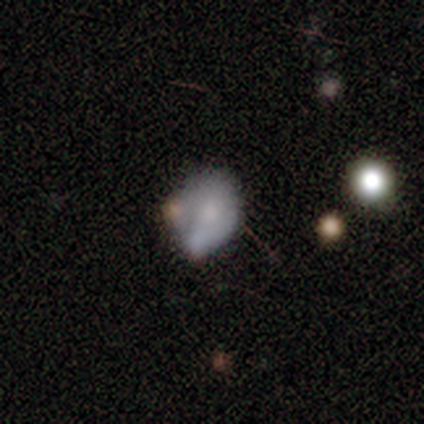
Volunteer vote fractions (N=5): This is likely a smooth galaxy (60%). How rounded: likely round (67%). Merging: marginally minor disturbance (40%, tied with merger).